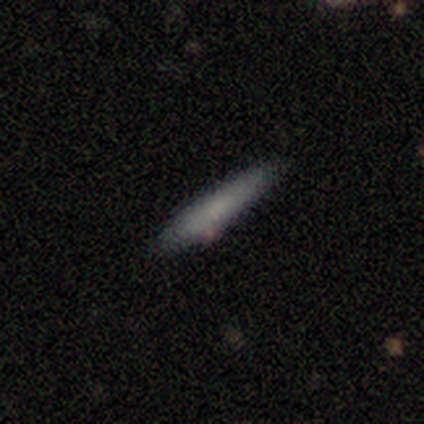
Morphology: type=smooth (75%); roundness=cigar-shaped (67%); merging=none (50%, tied with minor disturbance).